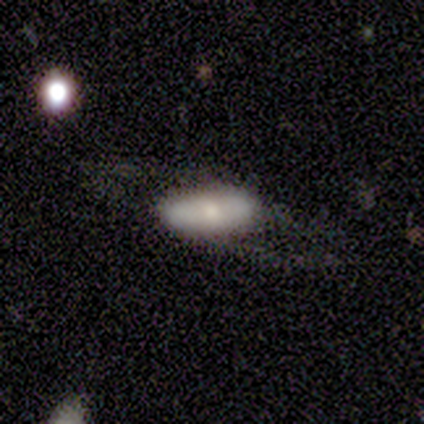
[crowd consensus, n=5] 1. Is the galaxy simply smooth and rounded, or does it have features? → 60% featured or disk, 40% smooth, 0% star or artifact.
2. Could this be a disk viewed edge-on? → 67% no, 33% yes.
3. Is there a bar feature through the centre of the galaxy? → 100% no, 0% strong, 0% weak.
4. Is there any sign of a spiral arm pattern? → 100% no, 0% yes.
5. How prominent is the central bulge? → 100% small, 0% dominant, 0% large, 0% moderate, 0% none.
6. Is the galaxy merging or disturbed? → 80% none, 20% major disturbance, 0% minor disturbance, 0% merger.